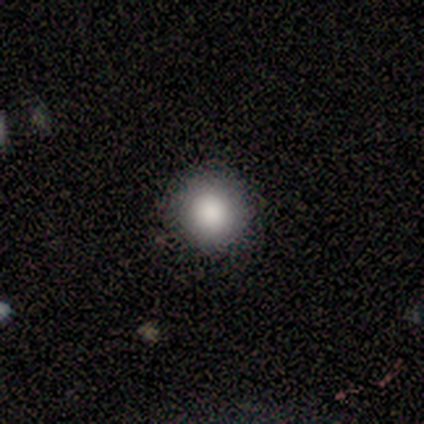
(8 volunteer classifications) This is clearly a smooth galaxy (100%). How rounded: clearly round (100%). Merging: clearly none (100%).